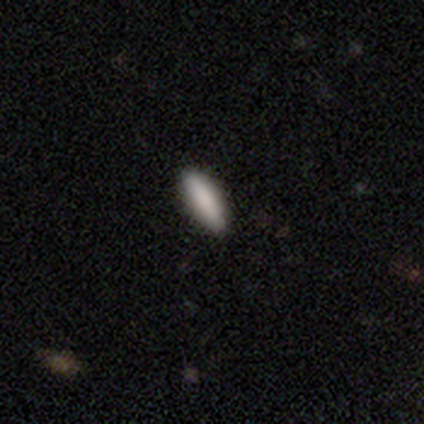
featured or disk 100%, smooth 0%, star or artifact 0%. Down the decision tree: edge-on disk — yes (50%, tied with no); edge-on bulge — boxy (100%); merging — none (50%, tied with major disturbance).